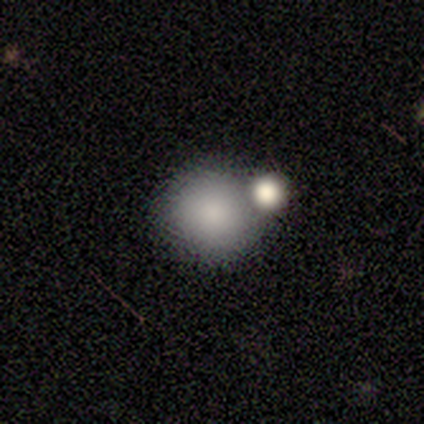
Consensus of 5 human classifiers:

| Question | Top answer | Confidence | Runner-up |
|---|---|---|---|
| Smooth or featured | smooth | 80% | featured or disk (20%) |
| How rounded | round | 100% | — |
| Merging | none | 40% | tied: merger (40%) |